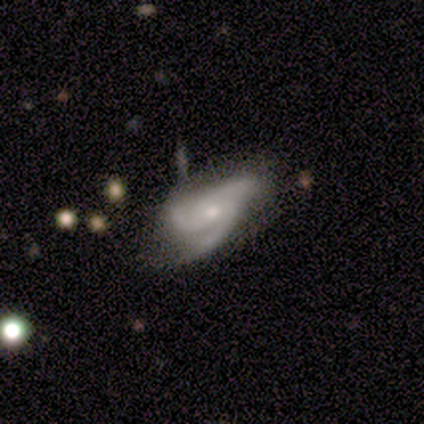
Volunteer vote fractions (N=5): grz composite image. It shows a featured or disk galaxy (80%) with no bar (75%), 3 (75%) medium (75%) spiral arms (100%) and a moderate central bulge (50%, tied with small). Merging: none (75%).